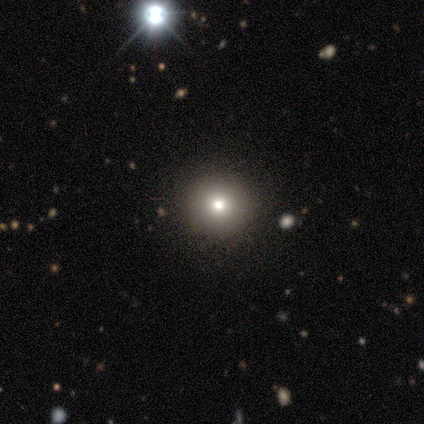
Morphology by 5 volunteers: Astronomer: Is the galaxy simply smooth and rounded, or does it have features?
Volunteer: smooth — 100%.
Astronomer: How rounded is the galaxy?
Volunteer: round — 100%.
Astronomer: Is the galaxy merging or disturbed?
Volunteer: none — 100%.